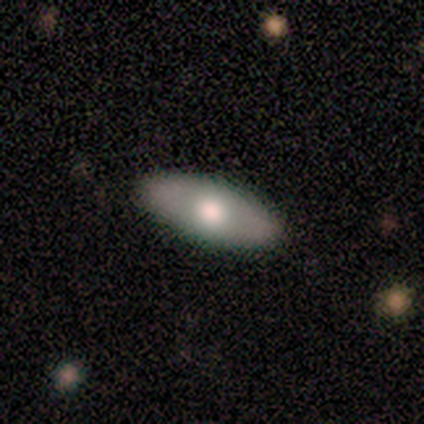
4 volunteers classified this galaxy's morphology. This appears to be a featured or disk galaxy (75%) viewed edge-on (100%) with a rounded central bulge (100%). Merging: none (100%).